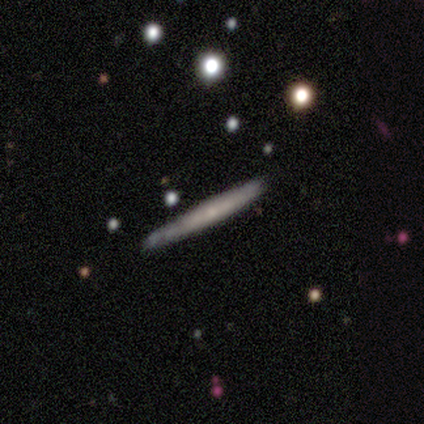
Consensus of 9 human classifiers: featured or disk 56%, smooth 44%, star or artifact 0%. Down the decision tree: edge-on disk — yes (80%); edge-on bulge — none (75%); merging — none (100%).